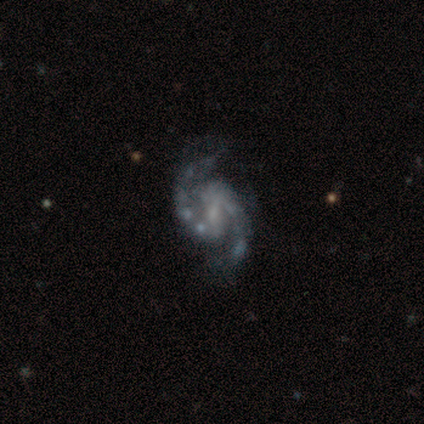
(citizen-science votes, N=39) smooth-or-featured: featured or disk: 97% | smooth: 3% | star or artifact: 0%
  disk-edge-on: no: 95% | yes: 5%
    bar: weak: 53% | strong: 28% | no: 19%
    has-spiral-arms: yes: 100% | no: 0%
      spiral-winding: medium: 56% | loose: 31% | tight: 14%
      spiral-arm-count: 2: 97% | can't tell: 3% | 1: 0% | 3: 0% | 4: 0% | more than 4: 0%
    bulge-size: none: 44% | small: 33% | moderate: 22% | dominant: 0% | large: 0%
  merging: none: 69% | major disturbance: 15% | minor disturbance: 10% | merger: 5%